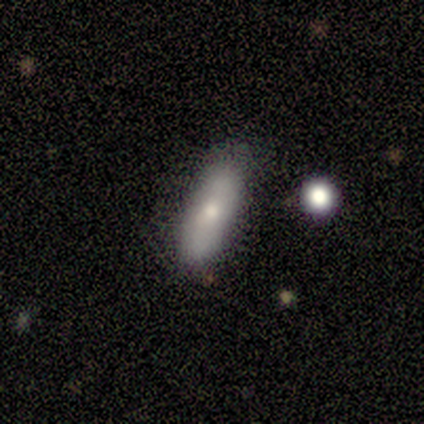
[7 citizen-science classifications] Q: Smooth or featured?
A: smooth (71%); runner-up: featured or disk (29%)
Q: How rounded?
A: in between (60%); runner-up: cigar-shaped (40%)
Q: Merging?
A: none (100%)